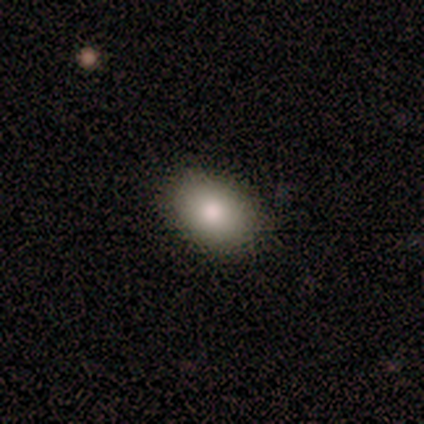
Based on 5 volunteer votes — smooth_or_featured: smooth (p=1.00)
how_rounded: in between (p=1.00)
merging: none (p=0.80) [alt: minor disturbance p=0.20]